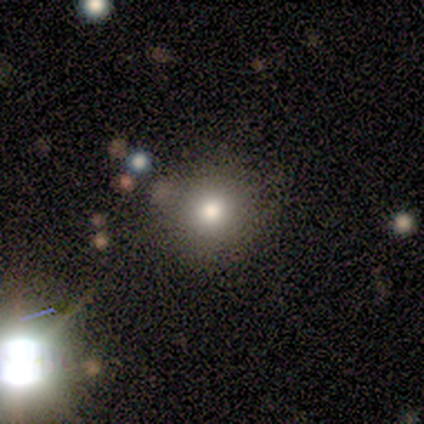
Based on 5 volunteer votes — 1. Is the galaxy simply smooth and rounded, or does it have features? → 100% smooth, 0% featured or disk, 0% star or artifact.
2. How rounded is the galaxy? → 100% round, 0% in between, 0% cigar-shaped.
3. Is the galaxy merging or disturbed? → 100% none, 0% minor disturbance, 0% major disturbance, 0% merger.